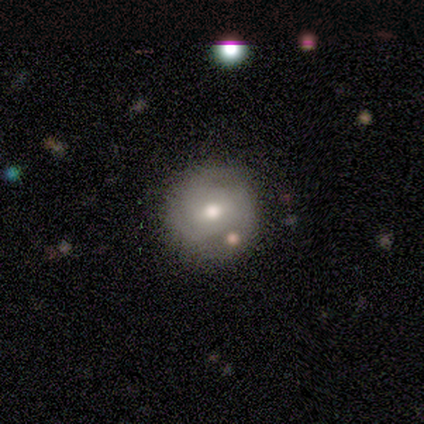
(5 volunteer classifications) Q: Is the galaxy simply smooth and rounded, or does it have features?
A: featured or disk — 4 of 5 (80%).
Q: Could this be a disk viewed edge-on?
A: no — 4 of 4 (100%).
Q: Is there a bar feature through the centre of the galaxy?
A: no — 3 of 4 (75%).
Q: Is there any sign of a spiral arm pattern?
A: yes — 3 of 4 (75%).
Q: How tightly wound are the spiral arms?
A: tight — 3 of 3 (100%).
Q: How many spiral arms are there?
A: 3 — 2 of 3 (67%).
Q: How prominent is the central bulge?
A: moderate — 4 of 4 (100%).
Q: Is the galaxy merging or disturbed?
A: none — 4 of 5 (80%).